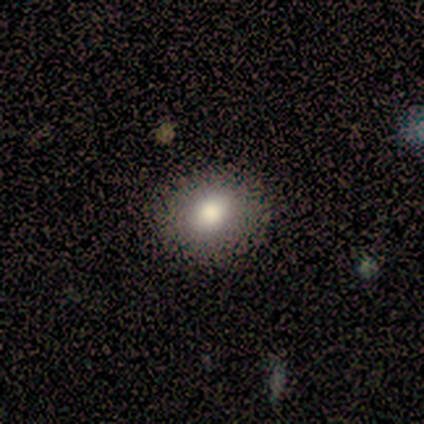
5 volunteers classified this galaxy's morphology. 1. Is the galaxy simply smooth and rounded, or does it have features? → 100% smooth, 0% featured or disk, 0% star or artifact.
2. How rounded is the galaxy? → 80% round, 20% in between, 0% cigar-shaped.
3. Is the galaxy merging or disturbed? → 100% none, 0% minor disturbance, 0% major disturbance, 0% merger.